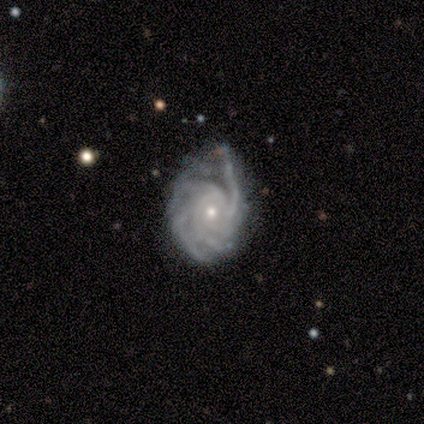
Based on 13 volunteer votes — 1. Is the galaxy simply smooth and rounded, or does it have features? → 92% featured or disk, 8% smooth, 0% star or artifact.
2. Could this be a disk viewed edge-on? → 92% no, 8% yes.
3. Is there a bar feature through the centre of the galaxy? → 73% no, 18% weak, 9% strong.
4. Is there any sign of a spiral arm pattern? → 100% yes, 0% no.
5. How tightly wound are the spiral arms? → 55% tight, 36% medium, 9% loose.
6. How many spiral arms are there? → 36% more than 4, 27% can't tell, 18% 4, 9% 2, 9% 3, 0% 1.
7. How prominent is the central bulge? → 82% small, 18% moderate, 0% dominant, 0% large, 0% none.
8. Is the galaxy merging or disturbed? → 54% minor disturbance, 38% none, 8% major disturbance, 0% merger.